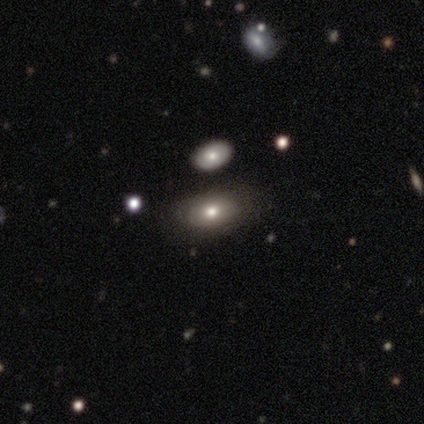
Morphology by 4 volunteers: Smooth or featured? star or artifact (50%)